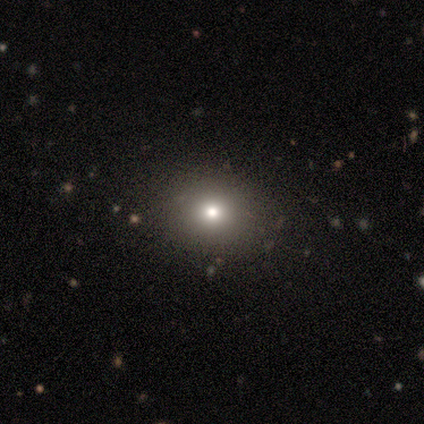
This is likely a smooth galaxy (75%). How rounded: likely round (67%). Merging: clearly none (83%).